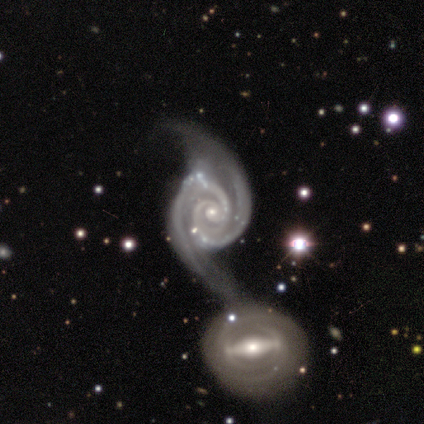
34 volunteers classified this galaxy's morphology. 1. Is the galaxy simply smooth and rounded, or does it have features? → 97% featured or disk, 3% star or artifact, 0% smooth.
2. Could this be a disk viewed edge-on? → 100% no, 0% yes.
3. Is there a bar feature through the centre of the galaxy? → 55% no, 27% strong, 18% weak.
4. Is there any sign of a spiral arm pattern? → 97% yes, 3% no.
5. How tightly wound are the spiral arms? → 69% tight, 19% loose, 12% medium.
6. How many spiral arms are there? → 88% 2, 9% 3, 3% 4, 0% 1, 0% more than 4, 0% can't tell.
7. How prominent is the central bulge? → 79% small, 18% moderate, 3% large, 0% dominant, 0% none.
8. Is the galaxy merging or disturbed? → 42% merger, 15% none, 6% major disturbance, 0% minor disturbance.